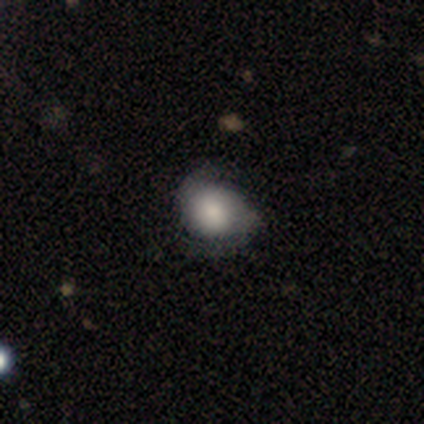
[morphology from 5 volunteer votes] A featured or disk galaxy (80%) with no bar (75%), 2 (100%) medium (67%) spiral arms (75%) and a moderate central bulge (75%). Merging: minor disturbance (80%).